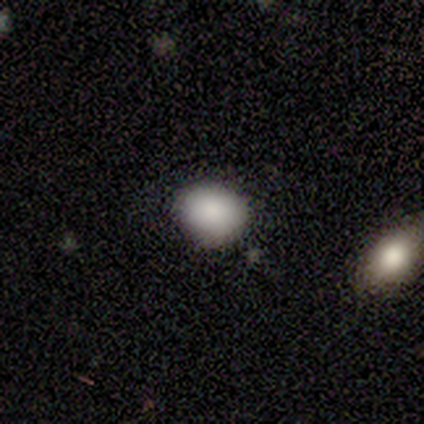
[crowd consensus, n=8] Smooth or featured? smooth (88%)
How rounded? round (57%)
Merging? none (71%)